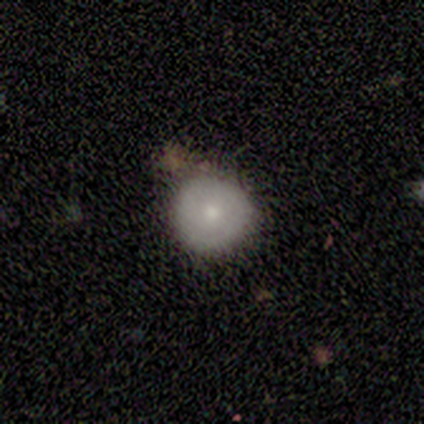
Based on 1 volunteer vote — Overall: smooth (100%). How rounded: round (100%). Merging: merger (100%).